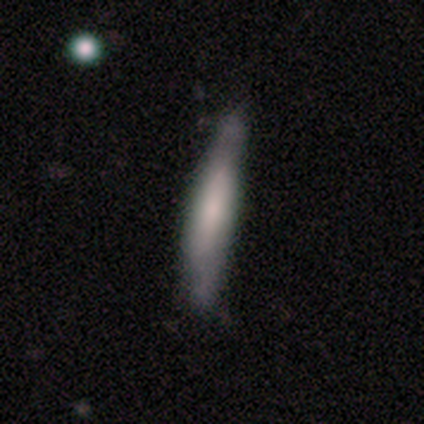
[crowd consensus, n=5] Morphology: type=featured or disk (80%); edge-on=yes (50%, tied with no); edge-on bulge=boxy (100%); merging=none (80%).